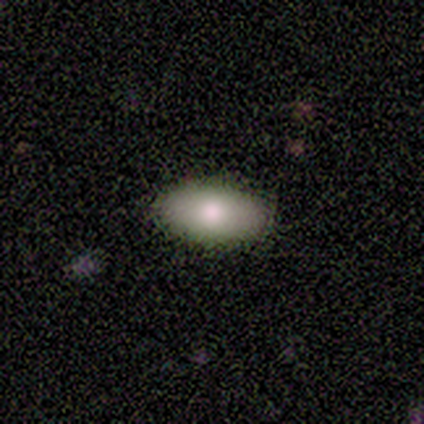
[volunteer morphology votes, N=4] Smooth or featured? smooth (100%)
How rounded? in between (100%)
Merging? none (100%)